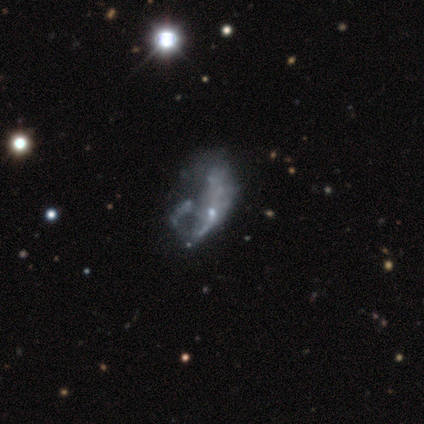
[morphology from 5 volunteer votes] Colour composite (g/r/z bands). It shows a featured or disk galaxy (60%) with no bar (100%), no spiral arms (100%) and a small central bulge (67%). Merging: major disturbance (60%).